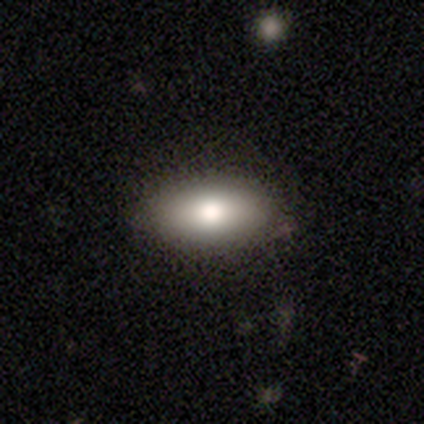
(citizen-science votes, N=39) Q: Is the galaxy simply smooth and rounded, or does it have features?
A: smooth — 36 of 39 (92%).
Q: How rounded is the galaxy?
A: in between — 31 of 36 (86%).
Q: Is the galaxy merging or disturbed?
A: none — 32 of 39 (82%).